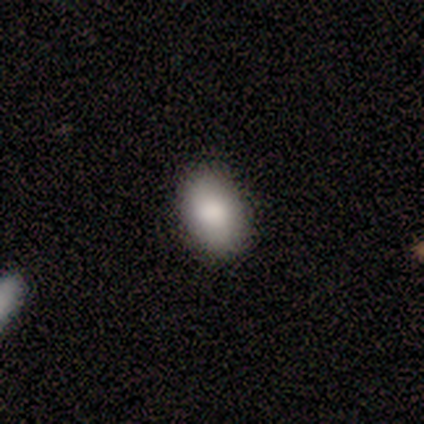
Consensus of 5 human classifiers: Smooth or featured: smooth — 80% (star or artifact — 20%)
How rounded: in between — 100%
Merging: none — 100%